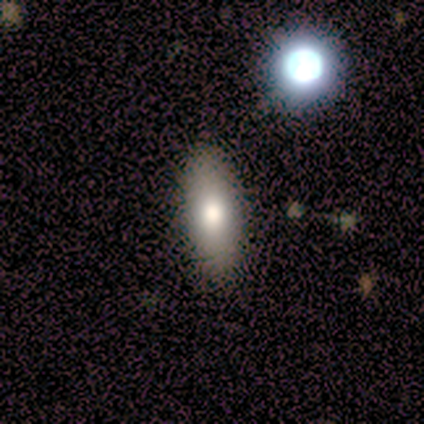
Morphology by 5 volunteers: Volunteers were most divided on "how rounded": cigar-shaped: 75%, in between: 25%, round: 0%. More confident: merging — none (100%); smooth or featured — smooth (80%).